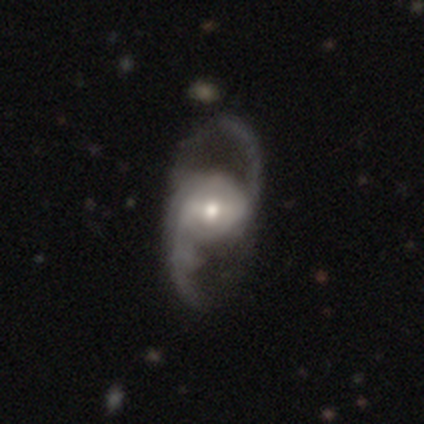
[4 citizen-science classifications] Volunteers were most divided on "merging": none: 50%, minor disturbance: 25%, major disturbance: 25%, merger: 0%. More confident: smooth or featured — featured or disk (100%); edge-on disk — no (75%); bar — strong (67%); spiral arms — no (67%); bulge size — moderate (67%).